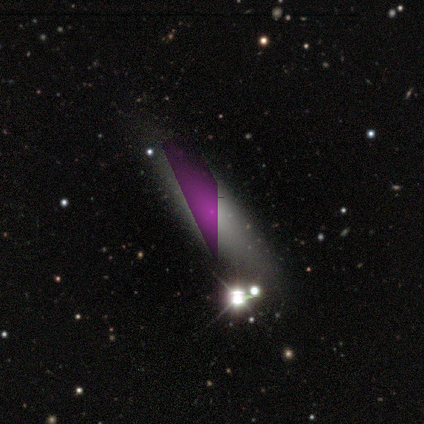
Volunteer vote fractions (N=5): A smooth galaxy with no disk features (60%) that is cigar-shaped (100%). Merging: none (67%).